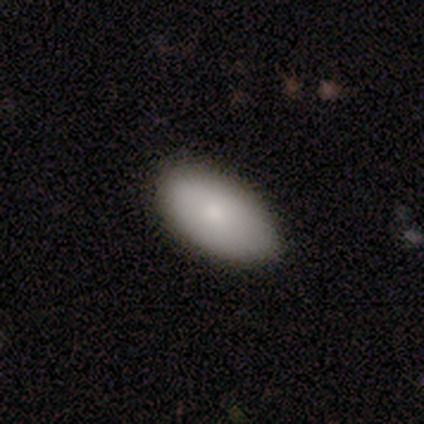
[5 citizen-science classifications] Q: Smooth or featured?
A: smooth (80%); runner-up: featured or disk (20%)
Q: How rounded?
A: in between (100%)
Q: Merging?
A: none (80%); runner-up: minor disturbance (20%)